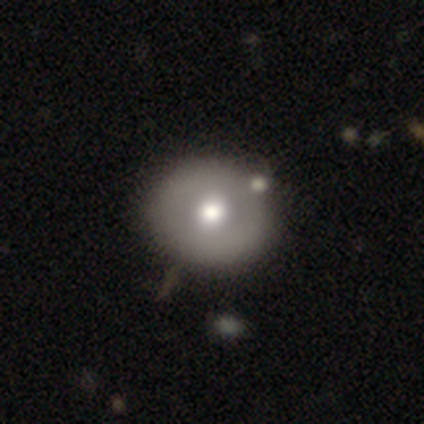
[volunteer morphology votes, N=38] A smooth galaxy with no disk features (55%) that is round (86%). Merging: none (66%).